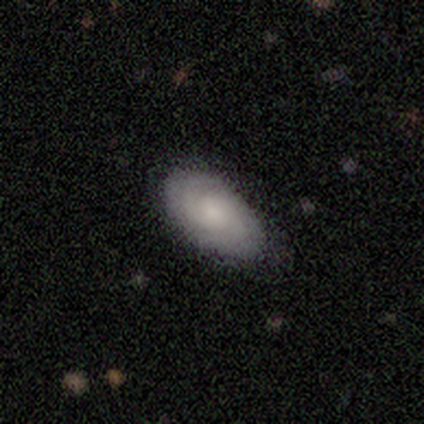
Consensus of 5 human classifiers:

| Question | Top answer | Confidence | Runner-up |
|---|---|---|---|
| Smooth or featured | smooth | 40% | tied: featured or disk (40%) |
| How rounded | in between | 100% | — |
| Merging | none | 50% | tied: minor disturbance (50%) |